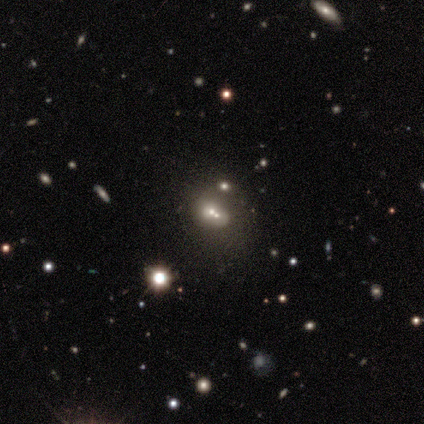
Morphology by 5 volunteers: This is likely a smooth galaxy (60%). How rounded: likely in between (67%). Merging: likely merger (67%).